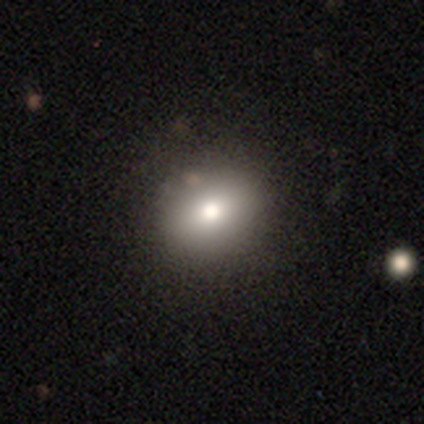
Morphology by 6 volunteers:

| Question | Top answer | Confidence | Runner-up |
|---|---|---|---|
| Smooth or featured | smooth | 67% | star or artifact (33%) |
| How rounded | in between | 75% | round (25%) |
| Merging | none | 75% | major disturbance (25%) |